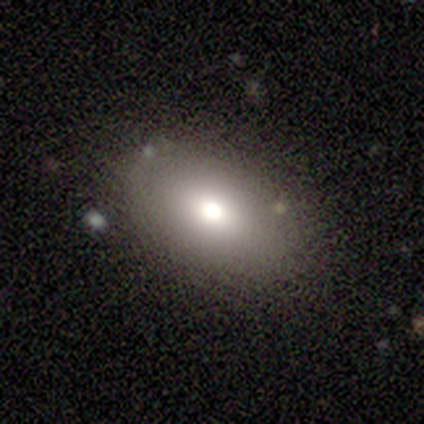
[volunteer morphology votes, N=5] smooth_or_featured: smooth (p=1.00)
how_rounded: in between (p=1.00)
merging: none (p=1.00)